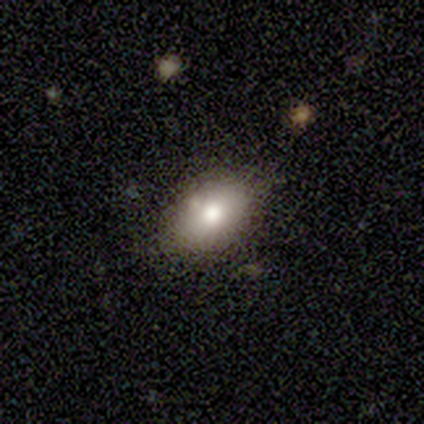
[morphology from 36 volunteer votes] A smooth galaxy with no disk features (78%) that is in between round and cigar-shaped (89%).

Vote fractions:
- Smooth or featured? smooth: 78% / featured or disk: 14% / star or artifact: 8%
- How rounded? in between: 89% / round: 11% / cigar-shaped: 0%
- Merging? none: 76% / minor disturbance: 21% / merger: 3% / major disturbance: 0%